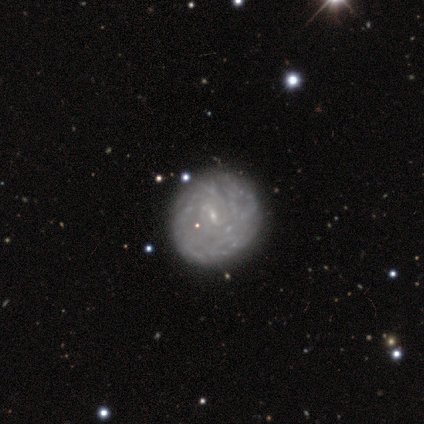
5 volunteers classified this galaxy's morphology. Smooth or featured? 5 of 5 (100%) said featured or disk. Edge-on disk? 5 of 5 (100%) said no. Bar? 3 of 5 (60%) said weak. Spiral arms? 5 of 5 (100%) said yes. Spiral winding? 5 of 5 (100%) said tight. Spiral arm count? 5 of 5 (100%) said can't tell. Bulge size? 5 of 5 (100%) said small. Merging? 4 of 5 (80%) said none.